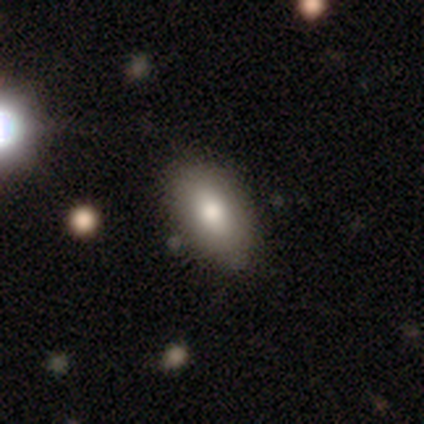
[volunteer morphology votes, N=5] Overall: smooth (100%). How rounded: in between (80%). Merging: none (80%).